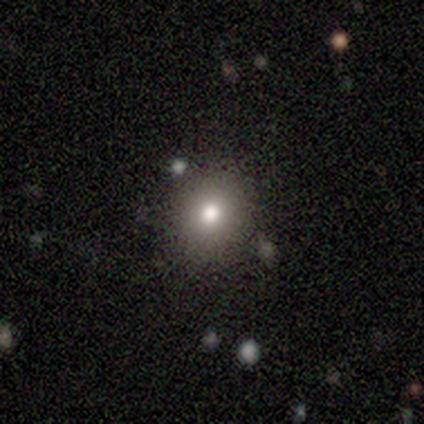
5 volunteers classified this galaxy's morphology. This is clearly a smooth galaxy (80%). How rounded: clearly round (100%). Merging: likely none (75%).